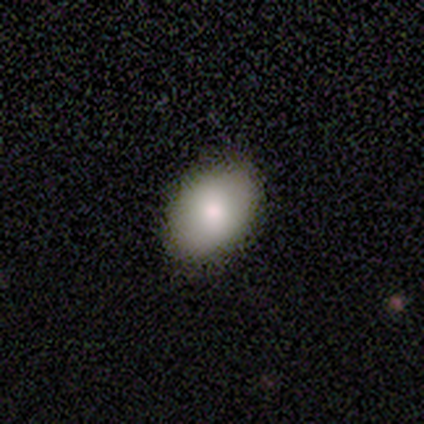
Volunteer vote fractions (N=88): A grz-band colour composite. It shows a smooth galaxy with no disk features (88%) that is in between round and cigar-shaped (88%). Merging: none (89%).